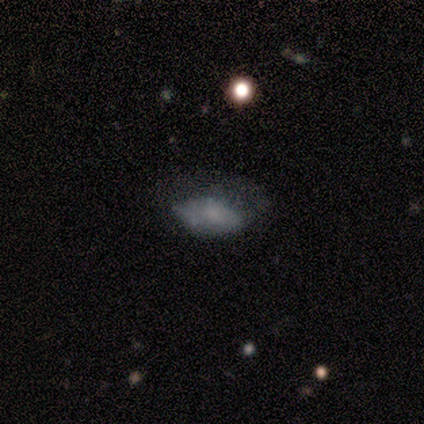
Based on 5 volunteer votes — This is clearly a smooth galaxy (80%). How rounded: clearly in between (100%). Merging: clearly none (80%).